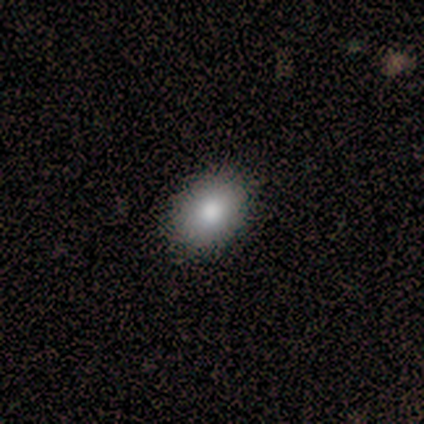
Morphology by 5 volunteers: A smooth galaxy with no disk features (100%) that is round (60%).

Vote fractions:
- Smooth or featured? smooth: 100% / featured or disk: 0% / star or artifact: 0%
- How rounded? round: 60% / in between: 40% / cigar-shaped: 0%
- Merging? none: 100% / minor disturbance: 0% / major disturbance: 0% / merger: 0%